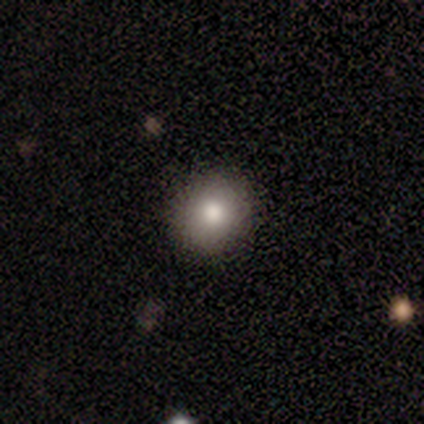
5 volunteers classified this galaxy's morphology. A smooth galaxy with no disk features (80%) that is round (75%).

Vote fractions:
- Smooth or featured? smooth: 80% / star or artifact: 20% / featured or disk: 0%
- How rounded? round: 75% / in between: 25% / cigar-shaped: 0%
- Merging? none: 100% / minor disturbance: 0% / major disturbance: 0% / merger: 0%